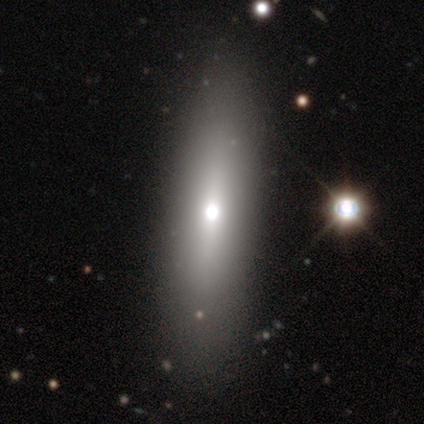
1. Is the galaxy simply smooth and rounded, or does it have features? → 40% smooth (tied), 40% featured or disk (tied), 20% star or artifact.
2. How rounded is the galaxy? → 50% round (tied), 50% cigar-shaped (tied), 0% in between.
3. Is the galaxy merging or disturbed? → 75% none, 25% major disturbance, 0% minor disturbance, 0% merger.